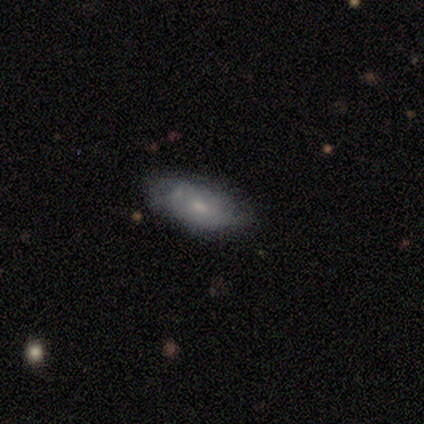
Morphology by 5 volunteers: smooth 60%, featured or disk 40%, star or artifact 0%. Down the decision tree: how rounded — in between (100%); merging — none (80%).